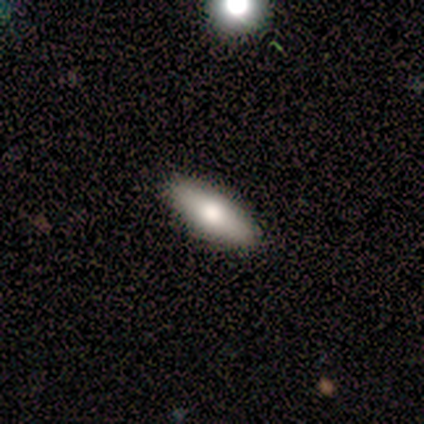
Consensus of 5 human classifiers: A smooth galaxy with no disk features (80%) that is in between round and cigar-shaped (75%).

Vote fractions:
- Smooth or featured? smooth: 80% / featured or disk: 20% / star or artifact: 0%
- How rounded? in between: 75% / cigar-shaped: 25% / round: 0%
- Merging? none: 60% / minor disturbance: 20% / major disturbance: 20% / merger: 0%